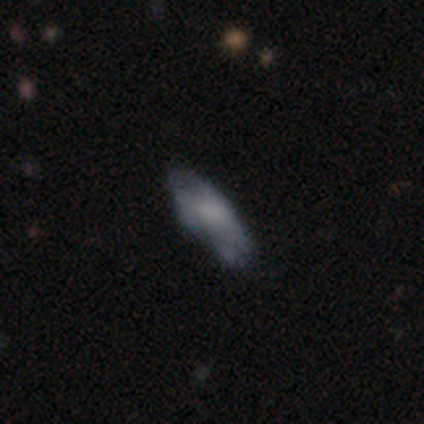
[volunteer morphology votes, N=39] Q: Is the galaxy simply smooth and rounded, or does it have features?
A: smooth — 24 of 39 (62%).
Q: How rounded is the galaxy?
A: in between — 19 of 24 (79%).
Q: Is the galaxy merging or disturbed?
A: none — 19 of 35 (54%).